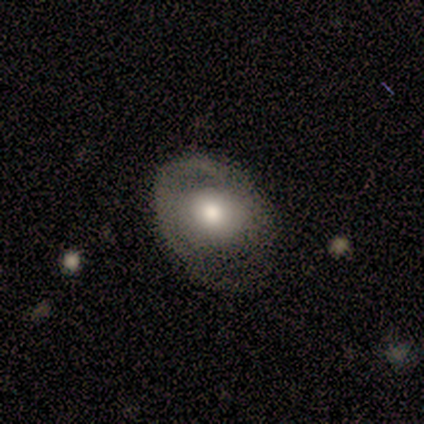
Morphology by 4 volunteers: A featured or disk galaxy (75%) with no bar (100%), no spiral arms (100%) and a large central bulge (50%, tied with moderate).

Vote fractions:
- Smooth or featured? featured or disk: 75% / star or artifact: 25% / smooth: 0%
- Edge-on disk? no: 67% / yes: 33%
- Bar? no: 100% / strong: 0% / weak: 0%
- Spiral arms? no: 100% / yes: 0%
- Bulge size? large: 50% (tied) / moderate: 50% (tied) / dominant: 0% / small: 0% / none: 0%
- Merging? none: 67% / minor disturbance: 33% / major disturbance: 0% / merger: 0%